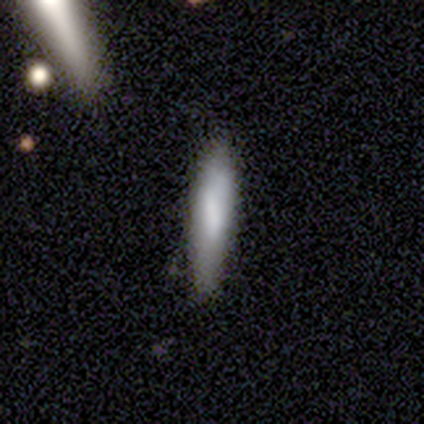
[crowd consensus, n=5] smooth_or_featured: smooth (p=0.60) [alt: featured or disk p=0.40]
how_rounded: in between (p=0.67) [alt: cigar-shaped p=0.33]
merging: none (p=0.60) [alt: minor disturbance p=0.40]